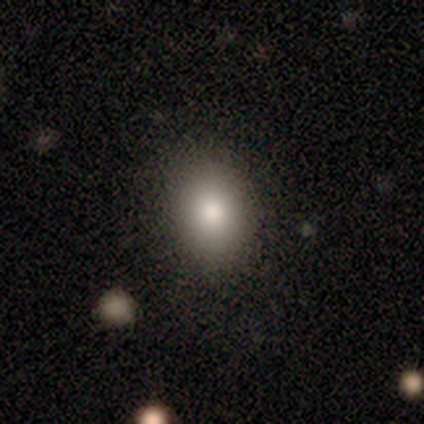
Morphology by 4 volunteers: Smooth or featured? smooth (100%)
How rounded? in between (100%)
Merging? none (75%)